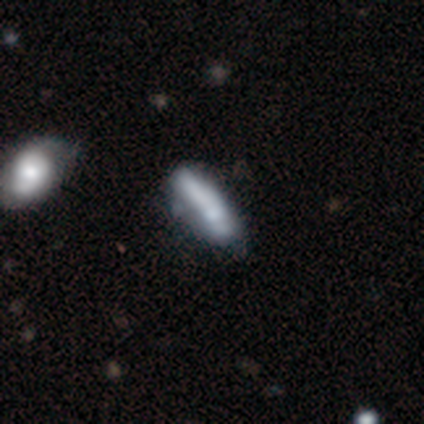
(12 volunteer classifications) This is possibly a smooth galaxy (58%). How rounded: possibly cigar-shaped (57%). Merging: possibly none (45%).